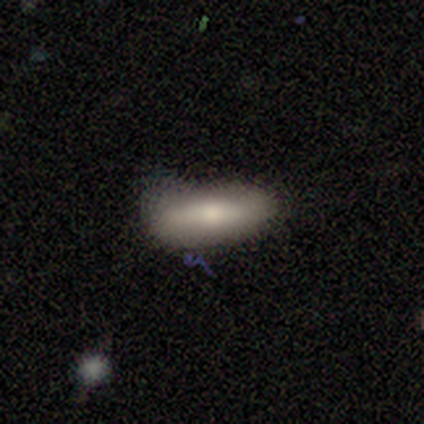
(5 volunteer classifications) Smooth or featured? 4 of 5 (80%) said smooth. How rounded? 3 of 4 (75%) said in between. Merging? 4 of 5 (80%) said none.